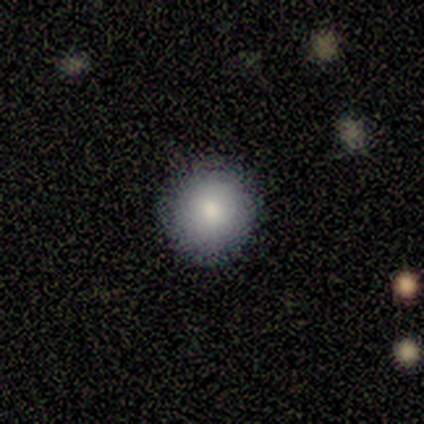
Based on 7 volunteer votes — Overall: smooth (86%). How rounded: round (83%). Merging: none (83%).